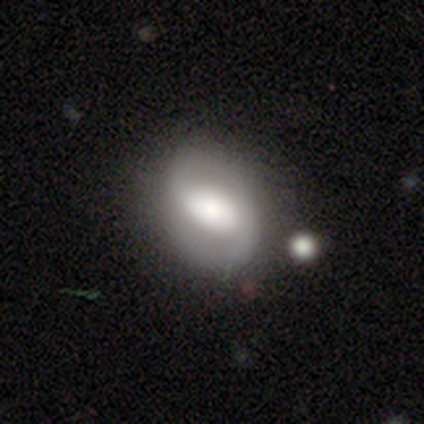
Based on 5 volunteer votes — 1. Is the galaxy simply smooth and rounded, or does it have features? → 60% featured or disk, 40% smooth, 0% star or artifact.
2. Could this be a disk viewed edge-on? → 100% no, 0% yes.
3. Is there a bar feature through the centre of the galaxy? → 100% weak, 0% strong, 0% no.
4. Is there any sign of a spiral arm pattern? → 67% yes, 33% no.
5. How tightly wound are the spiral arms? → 100% medium, 0% tight, 0% loose.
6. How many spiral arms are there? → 100% 2, 0% 1, 0% 3, 0% 4, 0% more than 4, 0% can't tell.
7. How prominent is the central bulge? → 33% dominant (tied), 33% small (tied), 33% none (tied), 0% large, 0% moderate.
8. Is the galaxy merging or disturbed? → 60% none, 20% minor disturbance, 20% merger, 0% major disturbance.